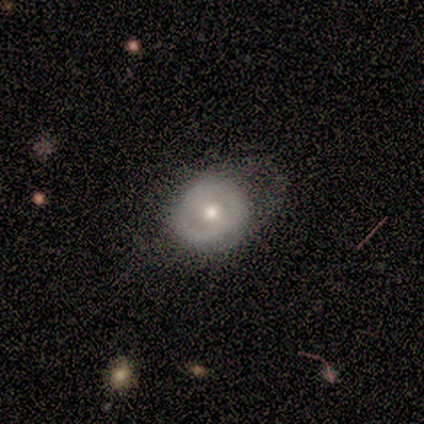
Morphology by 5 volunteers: A featured or disk galaxy (60%) with no bar (67%), no spiral arms (67%) and a moderate central bulge (67%). Merging: minor disturbance (40%, tied with major disturbance).